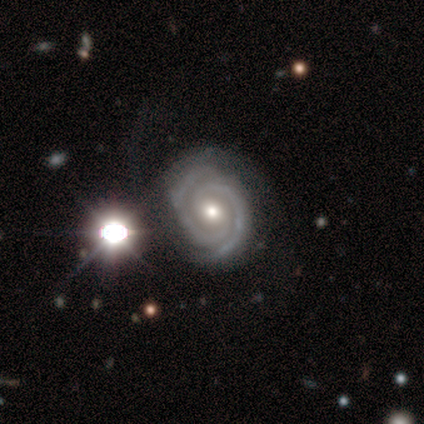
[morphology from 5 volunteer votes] Smooth or featured: featured or disk — 100%
Edge-on disk: no — 100%
Bar: no — 60% (strong — 40%)
Spiral arms: yes — 100%
Spiral winding: tight — 60% (medium — 40%)
Spiral arm count: 2 — 80% (more than 4 — 20%)
Bulge size: dominant — 40% (tied with moderate — 40%)
Merging: minor disturbance — 40% (tied with major disturbance — 40%)